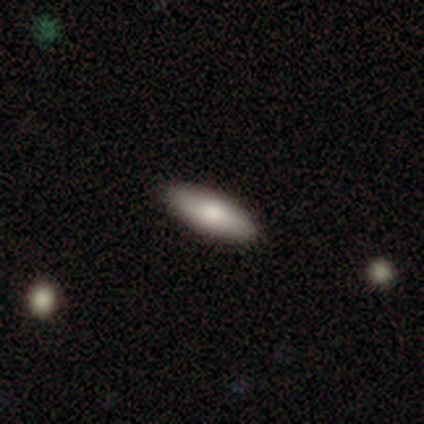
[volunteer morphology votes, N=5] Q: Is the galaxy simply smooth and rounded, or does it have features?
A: smooth — 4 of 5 (80%).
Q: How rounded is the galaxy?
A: in between — 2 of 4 (50%, tied with cigar-shaped).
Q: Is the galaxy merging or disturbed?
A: none — 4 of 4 (100%).